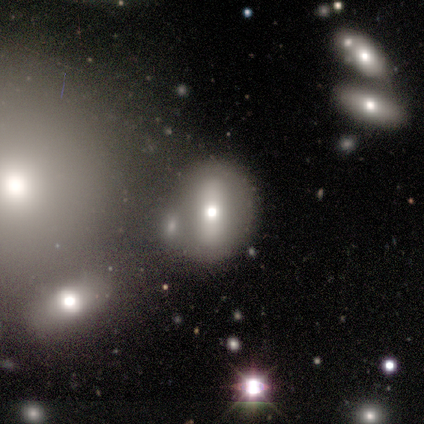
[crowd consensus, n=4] Smooth or featured? star or artifact (50%)